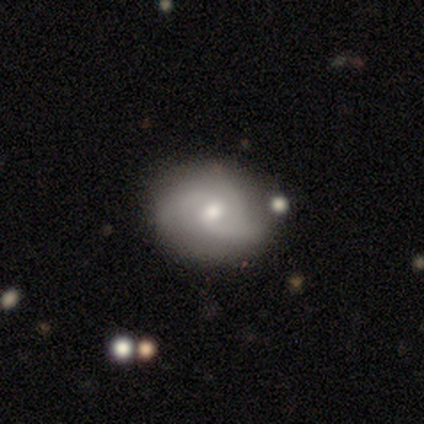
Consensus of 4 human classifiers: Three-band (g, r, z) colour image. It shows a featured or disk galaxy (75%) with no bar (67%), 2 (100%) loose (67%) spiral arms (100%) and a small central bulge (67%). Merging: none (75%).